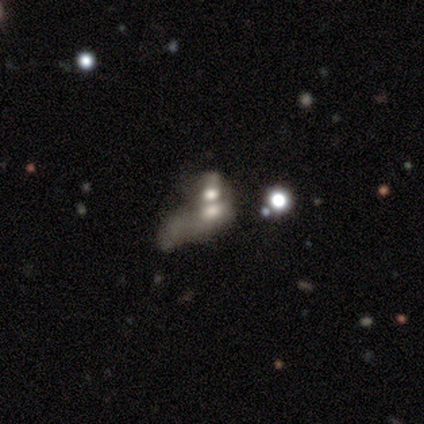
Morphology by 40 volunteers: type=featured or disk (50%); edge-on=no (100%); bar=no (90%); spiral arms=no (100%); bulge=moderate (40%); merging=merger (59%).